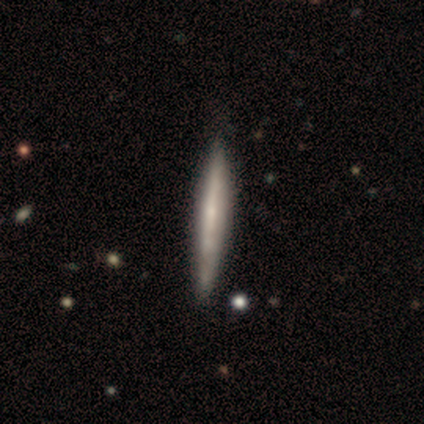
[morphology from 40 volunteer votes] A smooth galaxy with no disk features (52%) that is cigar-shaped (100%).

Vote fractions:
- Smooth or featured? smooth: 52% / featured or disk: 45% / star or artifact: 2%
- How rounded? cigar-shaped: 100% / round: 0% / in between: 0%
- Merging? none: 72% / minor disturbance: 21% / merger: 5% / major disturbance: 3%